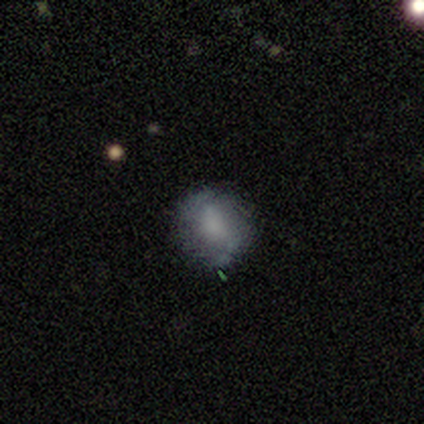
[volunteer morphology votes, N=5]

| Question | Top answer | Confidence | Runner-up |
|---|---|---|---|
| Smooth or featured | featured or disk | 60% | smooth (40%) |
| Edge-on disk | no | 100% | — |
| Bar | strong | 33% | tied: weak (33%), no (33%) |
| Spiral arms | no | 67% | yes (33%) |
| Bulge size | large | 33% | tied: moderate (33%), none (33%) |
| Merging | none | 80% | minor disturbance (20%) |